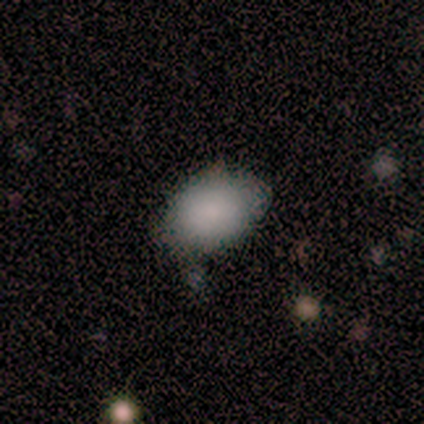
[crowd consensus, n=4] A smooth galaxy with no disk features (75%) that is in between round and cigar-shaped (100%). Merging: none (100%).